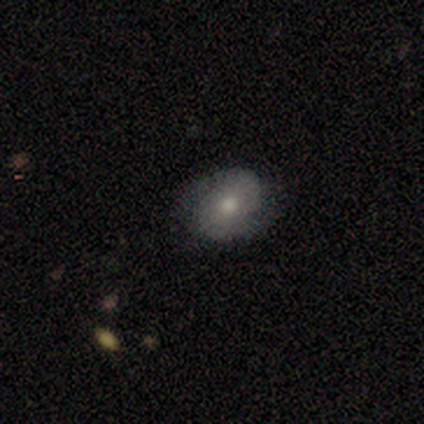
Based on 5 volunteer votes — featured or disk 60%, smooth 20%, star or artifact 20%. Down the decision tree: edge-on disk — no (100%); bar — no (67%); spiral arms — yes (67%); spiral arm count — 2 (50%, tied with can't tell); spiral winding — tight (50%, tied with medium); bulge size — moderate (67%); merging — none (100%).